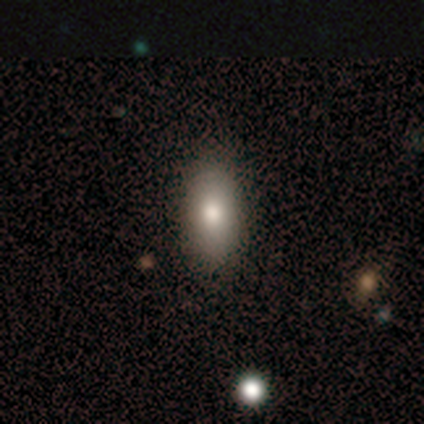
Smooth or featured? 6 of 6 (100%) said smooth. How rounded? 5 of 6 (83%) said in between. Merging? 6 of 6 (100%) said none.